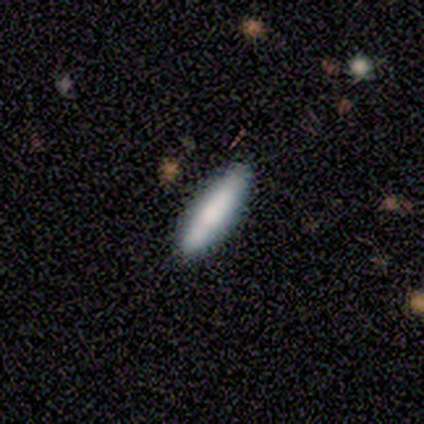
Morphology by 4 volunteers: Volunteers were most divided on "smooth or featured" (2-way tie): smooth: 50%, featured or disk: 50%, star or artifact: 0%; "how rounded" (2-way tie): in between: 50%, cigar-shaped: 50%, round: 0%. More confident: merging — none (100%).